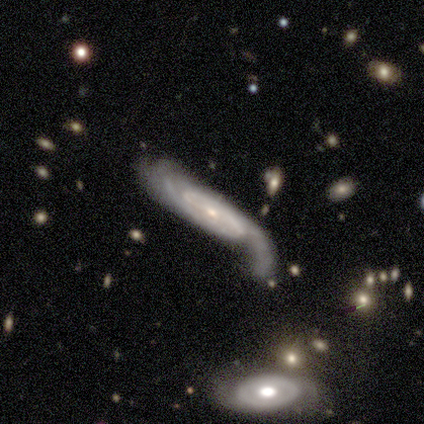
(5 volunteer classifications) featured or disk 100%, smooth 0%, star or artifact 0%. Down the decision tree: edge-on disk — no (100%); bar — no (60%); spiral arms — yes (100%); spiral arm count — 2 (80%); spiral winding — medium (80%); bulge size — small (60%); merging — none (40%, tied with major disturbance).